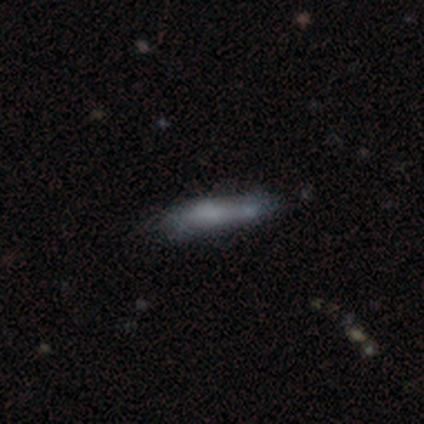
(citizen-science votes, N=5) Smooth or featured? 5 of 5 (100%) said smooth. How rounded? 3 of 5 (60%) said cigar-shaped. Merging? 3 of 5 (60%) said minor disturbance.